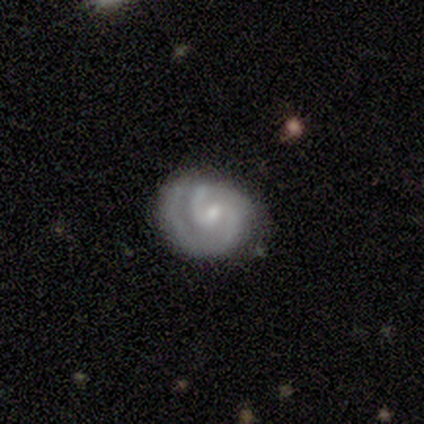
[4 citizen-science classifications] Overall: featured or disk (100%). Edge-on disk: no (100%). Bar: weak (100%). Spiral arms: yes (100%). Spiral arm count: 2 (100%). Spiral winding: tight (50%, tied with medium). Bulge size: small (75%). Merging: major disturbance (50%; none 25%).